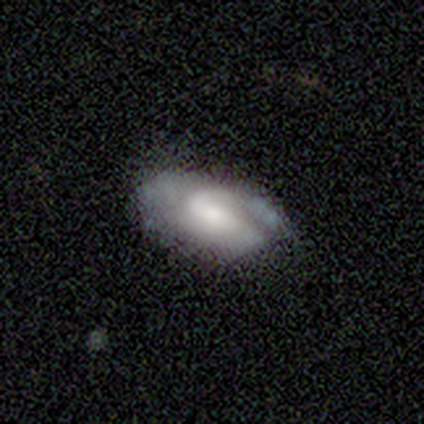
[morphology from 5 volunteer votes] This is likely a featured or disk galaxy (60%). It is clearly not viewed edge-on (100%). Bar: clearly weak (100%). Spiral arm pattern: clearly yes (100%). Spiral arm count: likely 1 (67%). Spiral winding: clearly tight (100%). Central bulge: likely small (67%). Merging: marginally none (40%, tied with major disturbance).